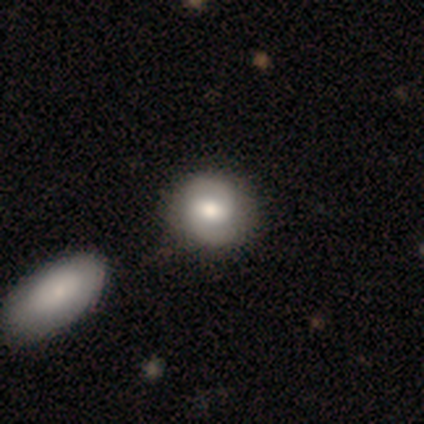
smooth_or_featured: featured or disk (p=0.80) [alt: smooth p=0.17]
disk_edge_on: no (p=1.00)
bar: weak (p=0.44) [alt: no p=0.38]
has_spiral_arms: yes (p=0.88) [alt: no p=0.12]
spiral_winding: medium (p=0.50) [alt: tight p=0.32]
spiral_arm_count: 2 (p=0.93) [alt: 1 p=0.04]
bulge_size: moderate (p=0.84) [alt: large p=0.12]
merging: none (p=0.64) [alt: merger p=0.10]